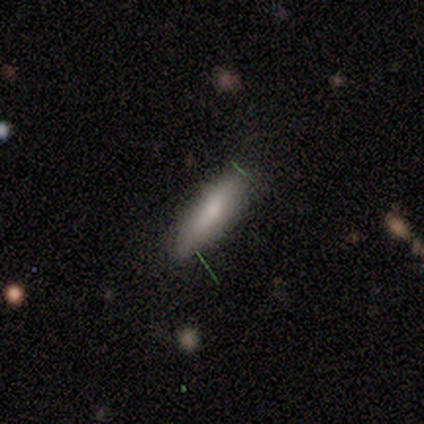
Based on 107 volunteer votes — Smooth or featured?
  - smooth: 70% *
  - featured or disk: 23%
  - star or artifact: 7%
How rounded?
  - cigar-shaped: 59% *
  - in between: 39%
  - round: 3%
Merging?
  - none: 83% *
  - minor disturbance: 12%
  - merger: 3%
  - major disturbance: 2%